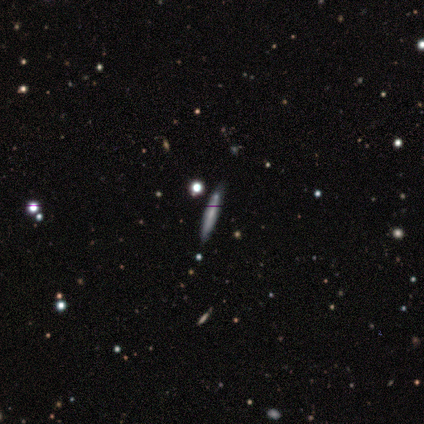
Smooth or featured? smooth (60%)
How rounded? cigar-shaped (100%)
Merging? none (75%)